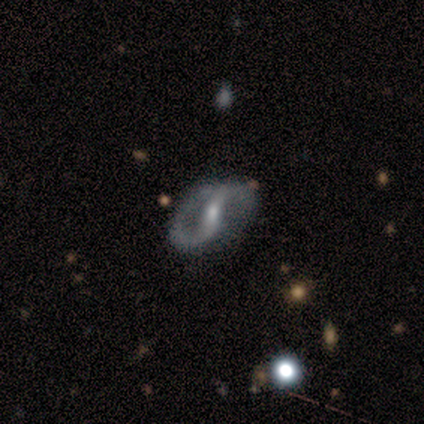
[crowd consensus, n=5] A featured or disk galaxy (100%) with a weak bar (60%), 2 (100%) medium (60%) spiral arms (100%) and a moderate central bulge (60%). Merging: none (80%).